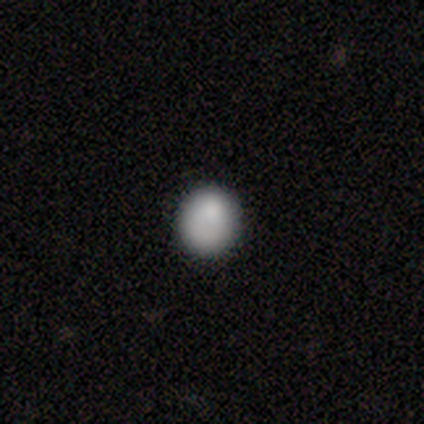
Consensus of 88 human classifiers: smooth 88%, star or artifact 7%, featured or disk 6%. Down the decision tree: how rounded — round (86%); merging — none (80%).